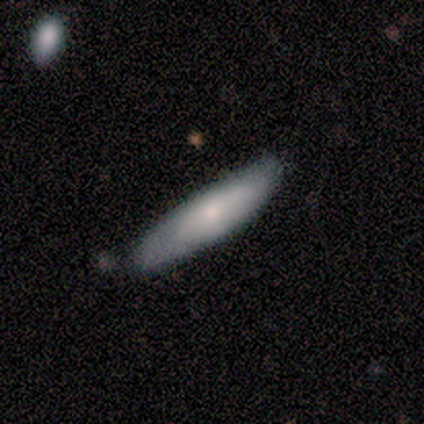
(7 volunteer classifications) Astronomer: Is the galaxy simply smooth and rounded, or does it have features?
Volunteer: smooth — 100%.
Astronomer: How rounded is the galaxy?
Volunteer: cigar-shaped — 86%.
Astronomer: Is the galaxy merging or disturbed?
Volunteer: none — 86%.